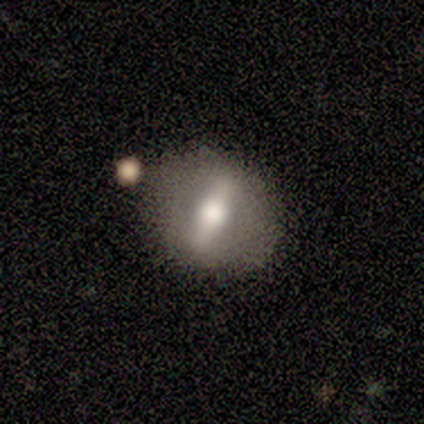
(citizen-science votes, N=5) smooth-or-featured: featured or disk: 80% | smooth: 20% | star or artifact: 0%
  disk-edge-on: no: 100% | yes: 0%
    bar: strong: 100% | weak: 0% | no: 0%
    has-spiral-arms: no: 100% | yes: 0%
    bulge-size: large: 50% (tied) | moderate: 50% (tied) | dominant: 0% | small: 0% | none: 0%
  merging: none: 80% | minor disturbance: 20% | major disturbance: 0% | merger: 0%